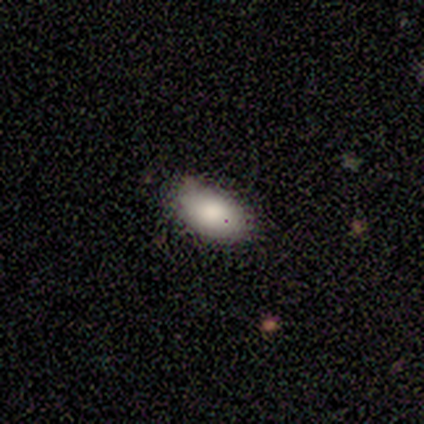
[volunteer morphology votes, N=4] Smooth or featured: smooth — 100%
How rounded: in between — 100%
Merging: none — 50% (tied with minor disturbance — 50%)